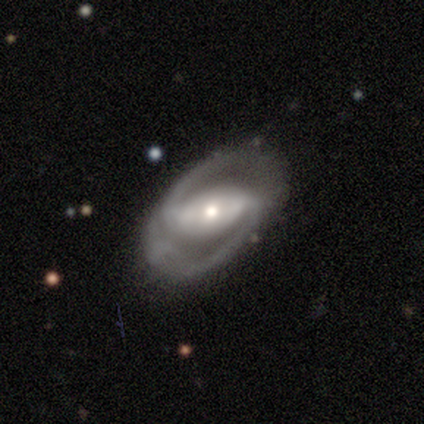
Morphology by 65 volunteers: Volunteers were most divided on "spiral winding": medium: 56%, tight: 31%, loose: 13%. More confident: edge-on disk — no (97%); spiral arm count — 2 (95%); smooth or featured — featured or disk (94%); spiral arms — yes (93%); merging — none (77%); bulge size — moderate (59%); bar — strong (59%).